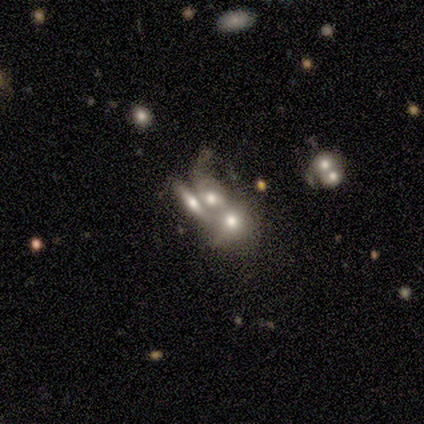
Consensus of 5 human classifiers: Smooth or featured: smooth — 60% (featured or disk — 40%)
How rounded: in between — 67% (round — 33%)
Merging: merger — 80% (major disturbance — 20%)